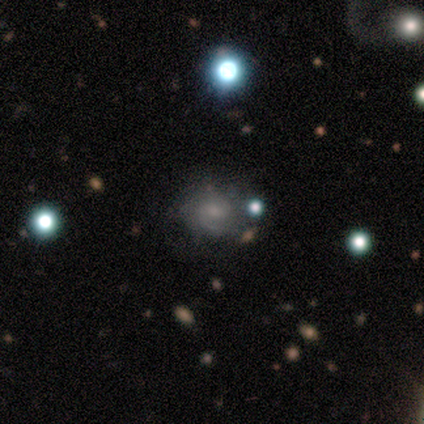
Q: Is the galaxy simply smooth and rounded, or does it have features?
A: featured or disk — 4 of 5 (80%).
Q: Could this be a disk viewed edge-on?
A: no — 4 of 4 (100%).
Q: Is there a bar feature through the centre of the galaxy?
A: strong — 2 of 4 (50%, tied with no).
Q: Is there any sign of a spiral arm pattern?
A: yes — 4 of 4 (100%).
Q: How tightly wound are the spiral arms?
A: tight — 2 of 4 (50%, tied with medium).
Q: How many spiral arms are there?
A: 2 — 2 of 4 (50%, tied with can't tell).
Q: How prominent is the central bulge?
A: moderate — 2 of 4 (50%, tied with none).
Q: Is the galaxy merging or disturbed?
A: none — 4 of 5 (80%).